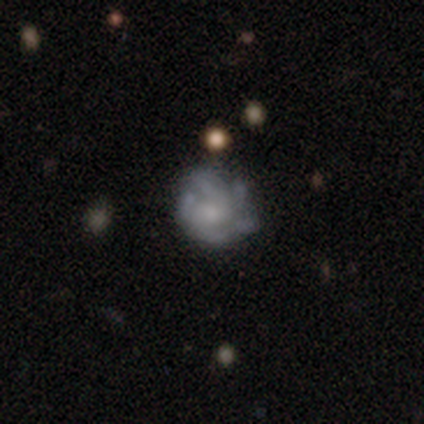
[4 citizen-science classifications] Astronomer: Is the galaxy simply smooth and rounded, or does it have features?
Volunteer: featured or disk — 100%.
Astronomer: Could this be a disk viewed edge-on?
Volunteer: no — 100%.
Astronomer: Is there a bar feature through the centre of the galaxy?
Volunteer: no — 75%.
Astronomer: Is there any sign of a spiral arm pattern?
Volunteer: yes — 75%.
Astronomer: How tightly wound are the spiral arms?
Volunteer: tight — 100%.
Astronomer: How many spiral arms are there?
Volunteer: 2 — 33%, tied with 3 and more than 4 at 33%.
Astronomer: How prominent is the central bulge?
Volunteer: moderate — 50%, tied with small at 50%.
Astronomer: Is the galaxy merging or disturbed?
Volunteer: none — 50%, tied with minor disturbance at 50%.